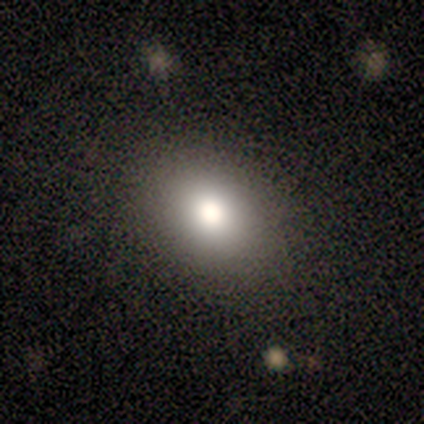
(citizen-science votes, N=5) Q: Smooth or featured?
A: smooth (60%); runner-up: featured or disk (20%)
Q: How rounded?
A: round (67%); runner-up: in between (33%)
Q: Merging?
A: none (100%)